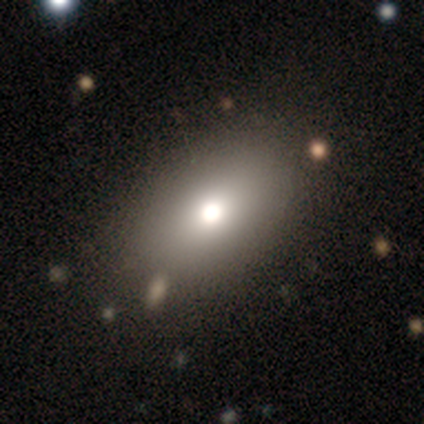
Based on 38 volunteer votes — A smooth galaxy with no disk features (79%) that is in between round and cigar-shaped (90%). Merging: none (91%).